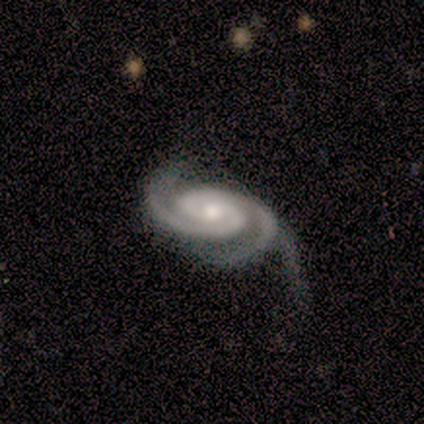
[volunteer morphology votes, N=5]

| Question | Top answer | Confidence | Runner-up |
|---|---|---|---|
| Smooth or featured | featured or disk | 80% | star or artifact (20%) |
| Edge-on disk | no | 100% | — |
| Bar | no | 100% | — |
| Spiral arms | yes | 100% | — |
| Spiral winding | tight | 75% | medium (25%) |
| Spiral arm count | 2 | 75% | 3 (25%) |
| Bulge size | small | 75% | moderate (25%) |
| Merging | minor disturbance | 50% | tied: major disturbance (50%) |